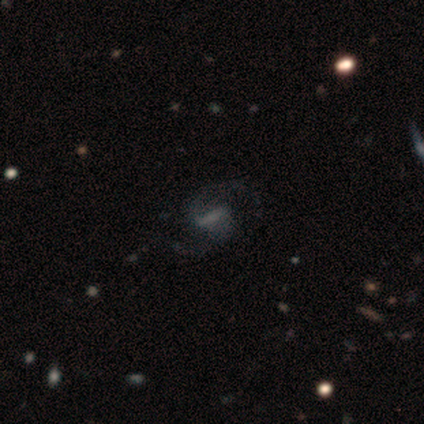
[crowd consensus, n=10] smooth_or_featured: featured or disk (p=0.80) [alt: star or artifact p=0.20]
disk_edge_on: no (p=1.00)
bar: strong (p=0.50) [alt: weak p=0.38]
has_spiral_arms: yes (p=0.75) [alt: no p=0.25]
spiral_winding: medium (p=0.83) [alt: tight p=0.17]
spiral_arm_count: 2 (p=1.00)
bulge_size: none (p=0.50) [alt: moderate p=0.25]
merging: none (p=0.62) [alt: minor disturbance p=0.25]